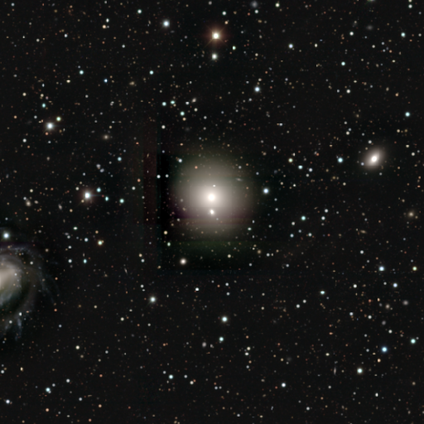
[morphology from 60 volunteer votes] This is possibly a smooth galaxy (55%). How rounded: clearly round (88%). Merging: likely none (78%).